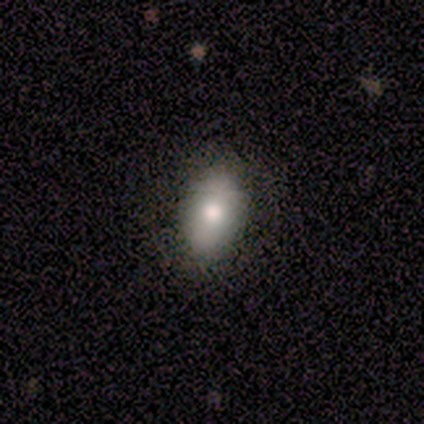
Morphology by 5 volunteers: A smooth galaxy with no disk features (100%) that is in between round and cigar-shaped (60%). Merging: none (100%).